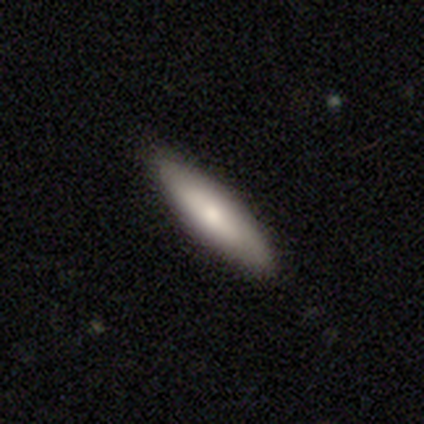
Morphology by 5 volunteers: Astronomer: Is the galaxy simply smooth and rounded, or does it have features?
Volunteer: smooth — 60%.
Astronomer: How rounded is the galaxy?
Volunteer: in between — 67%.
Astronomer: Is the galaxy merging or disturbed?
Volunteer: none — 100%.